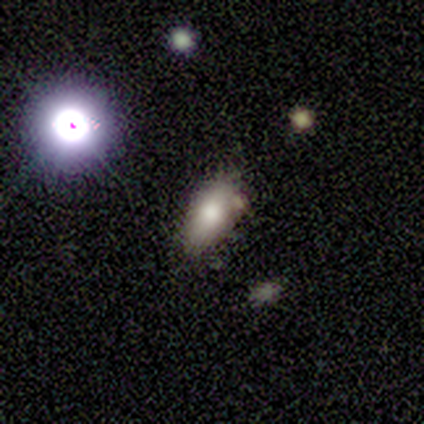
smooth-or-featured: smooth: 67% | featured or disk: 33% | star or artifact: 0%
  how-rounded: in between: 100% | round: 0% | cigar-shaped: 0%
  merging: none: 67% | minor disturbance: 33% | major disturbance: 0% | merger: 0%